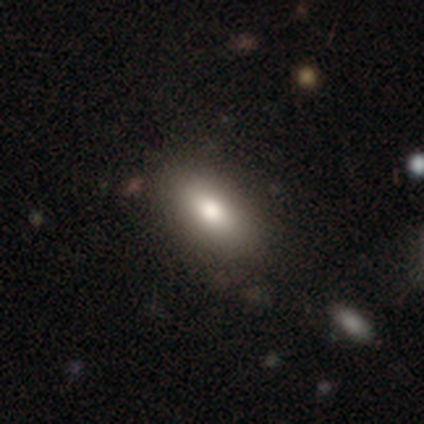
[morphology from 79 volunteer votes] Smooth or featured? smooth (82%)
How rounded? in between (91%)
Merging? none (47%)